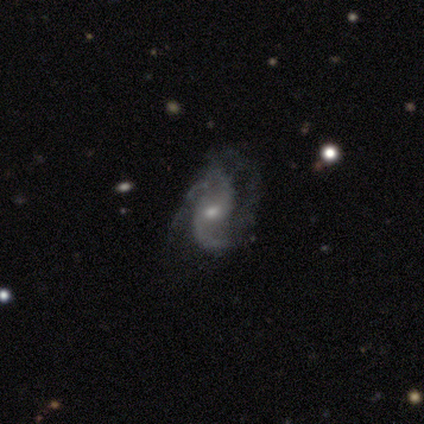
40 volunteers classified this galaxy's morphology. Overall: featured or disk (90%). Edge-on disk: no (100%). Bar: no (61%; weak 39%). Spiral arms: yes (94%). Spiral arm count: 2 (82%). Spiral winding: loose (50%; medium 32%). Bulge size: small (61%; moderate 28%). Merging: none (53%; major disturbance 29%).